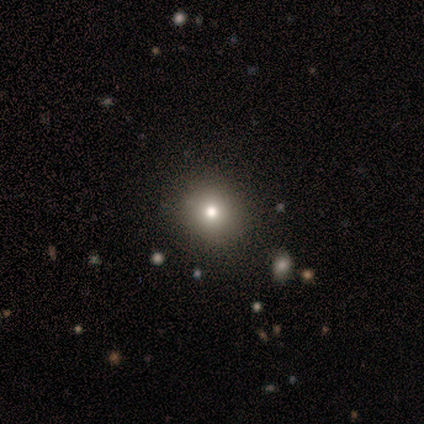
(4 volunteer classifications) Overall: smooth (50%, tied with star or artifact). How rounded: round (100%). Merging: none (100%).